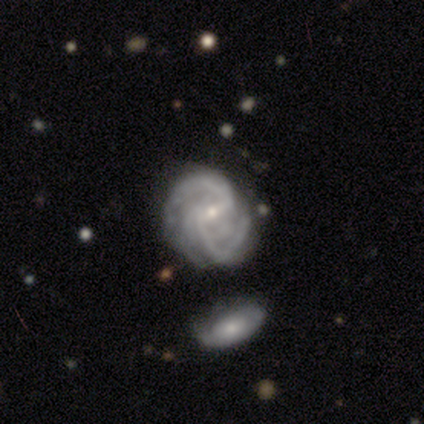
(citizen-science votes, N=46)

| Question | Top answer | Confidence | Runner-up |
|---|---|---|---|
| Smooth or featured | featured or disk | 89% | smooth (9%) |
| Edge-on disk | no | 100% | — |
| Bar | weak | 68% | strong (17%) |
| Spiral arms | yes | 95% | no (5%) |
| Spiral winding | medium | 49% | tight (33%) |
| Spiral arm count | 2 | 49% | can't tell (18%) |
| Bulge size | small | 76% | moderate (24%) |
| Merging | none | 47% | minor disturbance (27%) |